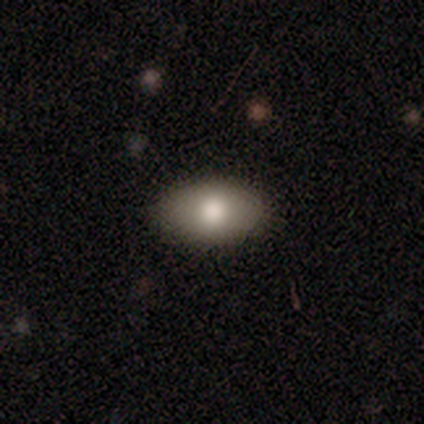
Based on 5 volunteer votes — Smooth or featured: smooth — 80% (featured or disk — 20%)
How rounded: in between — 75% (round — 25%)
Merging: none — 80% (minor disturbance — 20%)